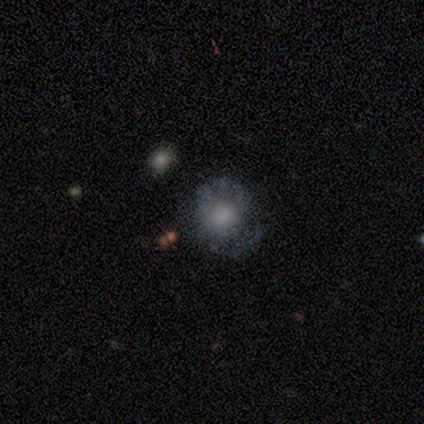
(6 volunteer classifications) Q: Smooth or featured?
A: featured or disk (67%); runner-up: smooth (33%)
Q: Edge-on disk?
A: no (100%)
Q: Bar?
A: no (100%)
Q: Spiral arms?
A: no (100%)
Q: Bulge size?
A: moderate (75%); runner-up: small (25%)
Q: Merging?
A: minor disturbance (67%); runner-up: none (33%)